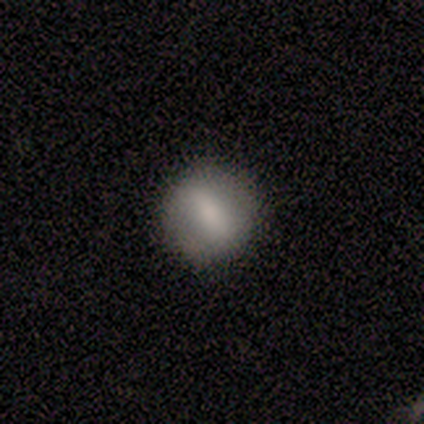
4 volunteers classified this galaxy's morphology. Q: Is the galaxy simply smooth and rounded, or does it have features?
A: smooth — 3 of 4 (75%).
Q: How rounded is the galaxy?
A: round — 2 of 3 (67%).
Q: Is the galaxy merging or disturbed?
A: none — 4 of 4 (100%).